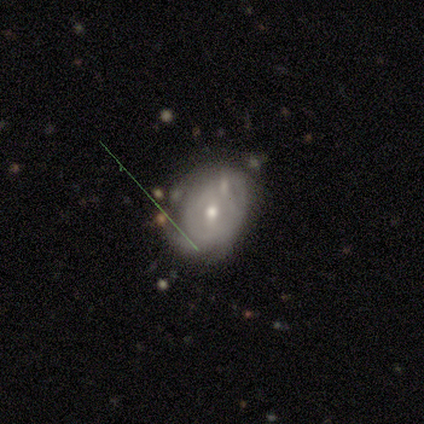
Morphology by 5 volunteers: A smooth galaxy with no disk features (40%, tied with featured or disk) that is in between round and cigar-shaped (100%).

Vote fractions:
- Smooth or featured? smooth: 40% (tied) / featured or disk: 40% (tied) / star or artifact: 20%
- How rounded? in between: 100% / round: 0% / cigar-shaped: 0%
- Merging? minor disturbance: 75% / none: 25% / major disturbance: 0% / merger: 0%